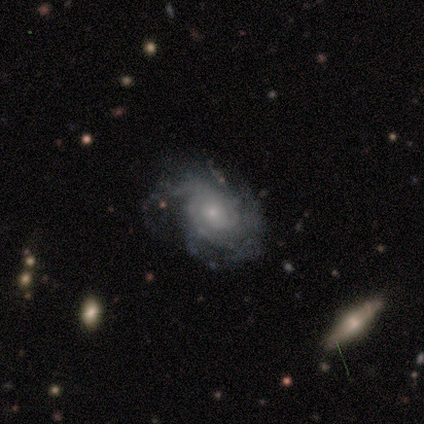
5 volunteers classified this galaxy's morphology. Smooth or featured? featured or disk (80%)
Edge-on disk? no (100%)
Bar? no (100%)
Spiral arms? yes (100%)
Spiral winding? tight (50%, tied with medium)
Spiral arm count? 1 (25%, tied with 3, 4 and can't tell)
Bulge size? small (75%)
Merging? none (100%)